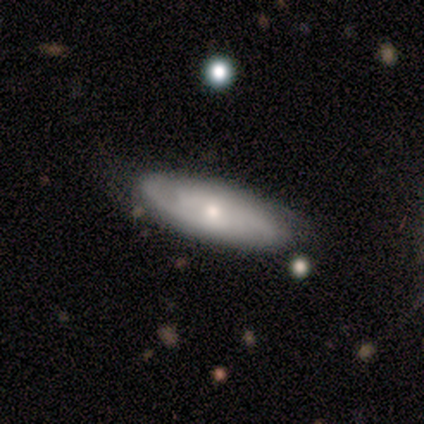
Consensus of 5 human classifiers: This is likely a featured or disk galaxy (60%). It is clearly not viewed edge-on (100%). Bar: likely no (67%). Spiral arm pattern: clearly yes (100%). Spiral arm count: clearly 2 (100%). Spiral winding: likely tight (67%). Central bulge: likely small (67%). Merging: clearly none (100%).